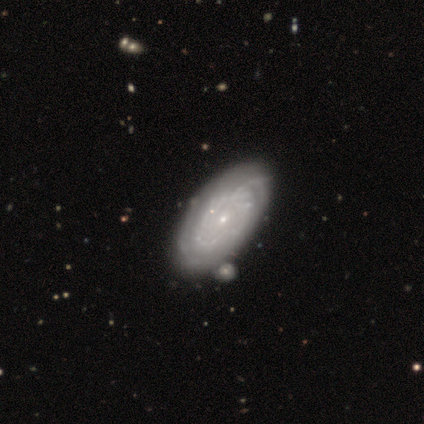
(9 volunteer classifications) smooth-or-featured: featured or disk: 67% | smooth: 33% | star or artifact: 0%
  disk-edge-on: no: 100% | yes: 0%
    bar: no: 67% | weak: 33% | strong: 0%
    has-spiral-arms: yes: 83% | no: 17%
      spiral-winding: tight: 80% | medium: 20% | loose: 0%
      spiral-arm-count: can't tell: 80% | 2: 20% | 1: 0% | 3: 0% | 4: 0% | more than 4: 0%
    bulge-size: small: 83% | moderate: 17% | dominant: 0% | large: 0% | none: 0%
  merging: none: 78% | minor disturbance: 11% | merger: 11% | major disturbance: 0%